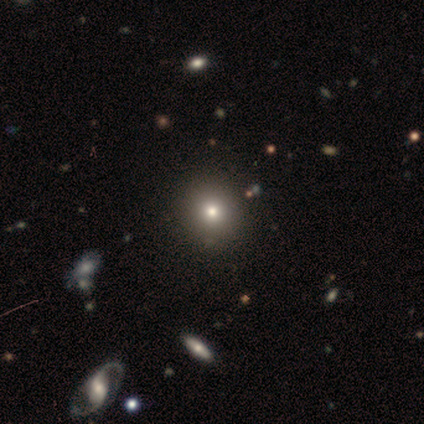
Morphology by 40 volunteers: Smooth or featured? 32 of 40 (80%) said smooth. How rounded? 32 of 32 (100%) said round. Merging? 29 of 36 (81%) said none.